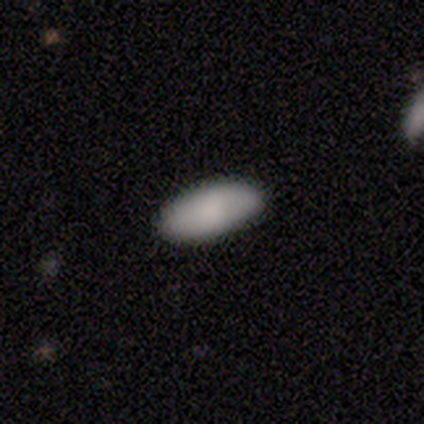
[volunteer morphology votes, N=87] This appears to be a smooth galaxy with no disk features (87%) that is in between round and cigar-shaped (93%). Merging: none (85%).